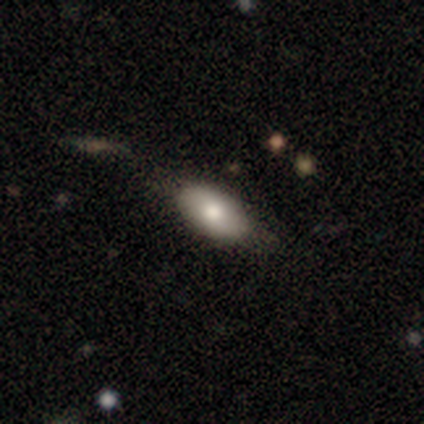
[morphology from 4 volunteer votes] A smooth galaxy with no disk features (100%) that is in between round and cigar-shaped (100%).

Vote fractions:
- Smooth or featured? smooth: 100% / featured or disk: 0% / star or artifact: 0%
- How rounded? in between: 100% / round: 0% / cigar-shaped: 0%
- Merging? none: 75% / minor disturbance: 25% / major disturbance: 0% / merger: 0%